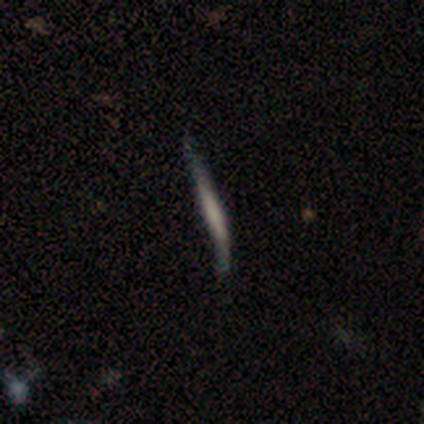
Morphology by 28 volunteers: Q: Smooth or featured?
A: smooth (46%); runner-up: featured or disk (36%)
Q: How rounded?
A: cigar-shaped (92%); runner-up: round (8%)
Q: Merging?
A: minor disturbance (57%); runner-up: none (26%)